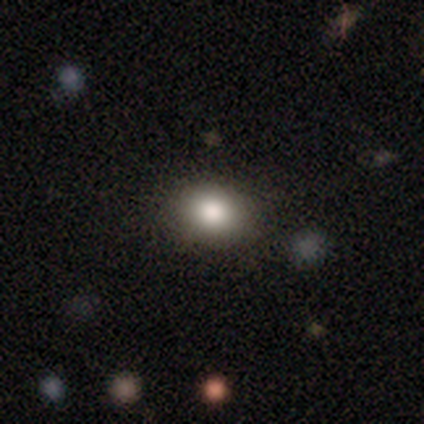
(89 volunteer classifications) Smooth or featured? smooth (83%)
How rounded? round (61%)
Merging? none (86%)